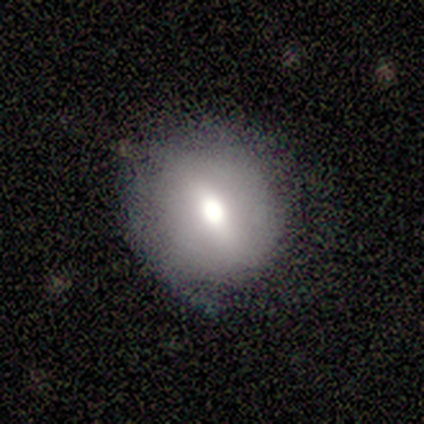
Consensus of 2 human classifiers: Smooth or featured?
  - smooth: 50% * (tied)
  - featured or disk: 50% * (tied)
  - star or artifact: 0%
How rounded?
  - round: 100% *
  - in between: 0%
  - cigar-shaped: 0%
Merging?
  - none: 100% *
  - minor disturbance: 0%
  - major disturbance: 0%
  - merger: 0%